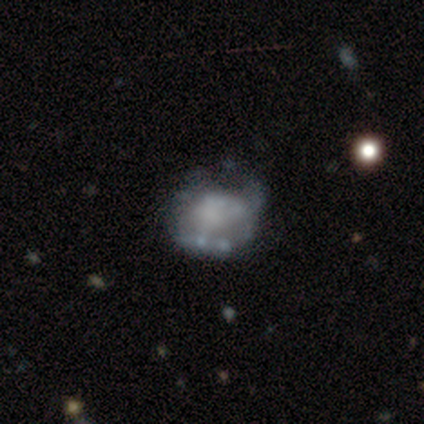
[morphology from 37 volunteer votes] Smooth or featured? featured or disk (78%)
Edge-on disk? no (97%)
Bar? no (82%)
Spiral arms? no (64%)
Bulge size? none (75%)
Merging? minor disturbance (32%)